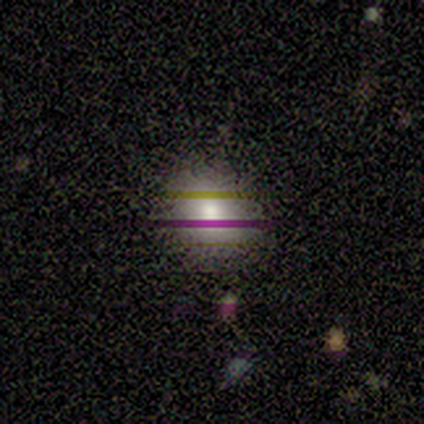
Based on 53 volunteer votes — smooth-or-featured: smooth: 53% | star or artifact: 30% | featured or disk: 17%
  how-rounded: round: 57% | in between: 43% | cigar-shaped: 0%
  merging: none: 81% | minor disturbance: 16% | major disturbance: 3% | merger: 0%